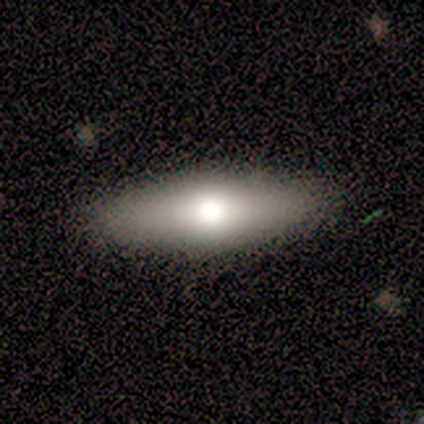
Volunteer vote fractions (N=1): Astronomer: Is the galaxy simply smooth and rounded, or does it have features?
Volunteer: smooth — 100%.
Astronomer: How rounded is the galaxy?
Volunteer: in between — 100%.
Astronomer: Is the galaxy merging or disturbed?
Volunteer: none — 100%.